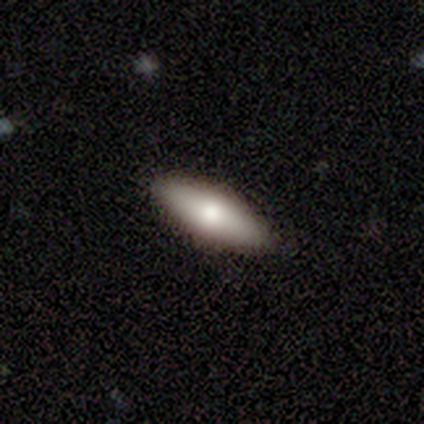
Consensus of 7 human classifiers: This appears to be a smooth galaxy with no disk features (71%) that is in between round and cigar-shaped (60%). Merging: none (100%).